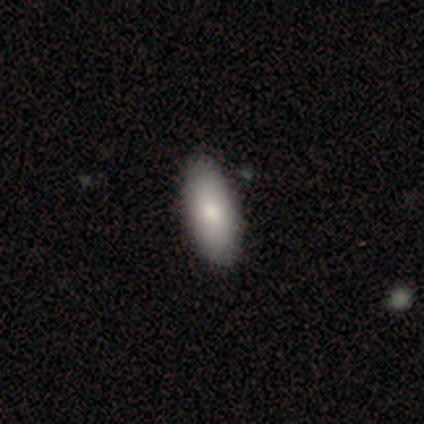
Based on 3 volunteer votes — Q: Smooth or featured?
A: smooth (100%)
Q: How rounded?
A: in between (67%); runner-up: cigar-shaped (33%)
Q: Merging?
A: none (100%)